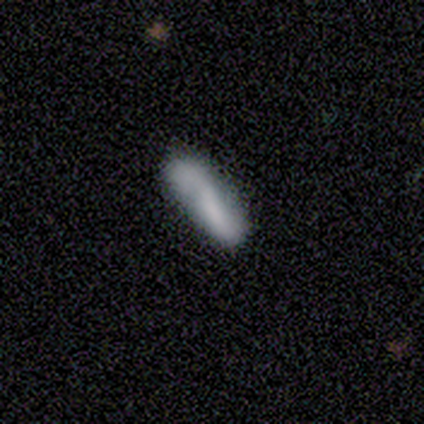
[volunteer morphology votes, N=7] smooth-or-featured: featured or disk: 57% | smooth: 43% | star or artifact: 0%
  disk-edge-on: no: 75% | yes: 25%
    bar: weak: 67% | no: 33% | strong: 0%
    has-spiral-arms: yes: 100% | no: 0%
      spiral-winding: loose: 100% | tight: 0% | medium: 0%
      spiral-arm-count: 2: 100% | 1: 0% | 3: 0% | 4: 0% | more than 4: 0% | can't tell: 0%
    bulge-size: none: 67% | small: 33% | dominant: 0% | large: 0% | moderate: 0%
  merging: none: 43% | merger: 29% | minor disturbance: 14% | major disturbance: 14%